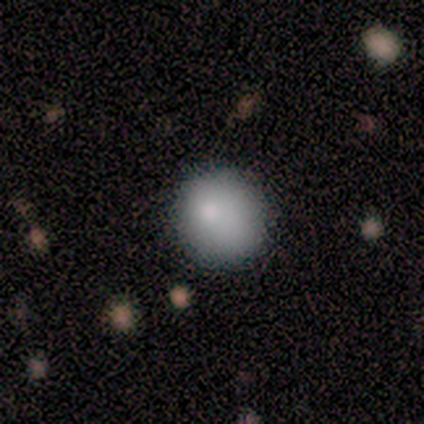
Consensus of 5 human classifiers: Smooth or featured: smooth — 100%
How rounded: round — 100%
Merging: none — 100%